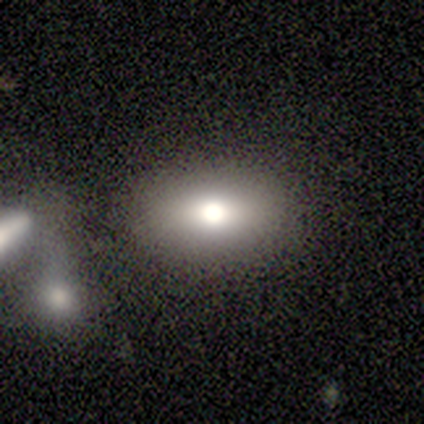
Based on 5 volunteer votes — smooth 100%, featured or disk 0%, star or artifact 0%. Down the decision tree: how rounded — in between (60%); merging — none (100%).